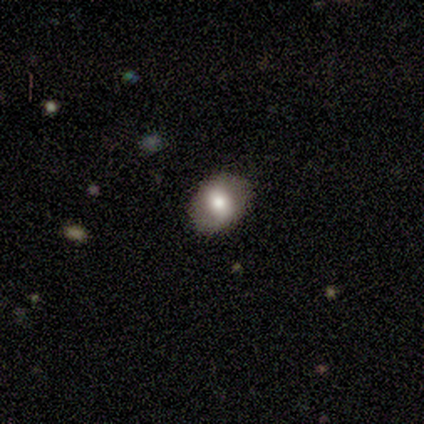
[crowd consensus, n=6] smooth 83%, featured or disk 17%, star or artifact 0%. Down the decision tree: how rounded — in between (100%); merging — none (100%).